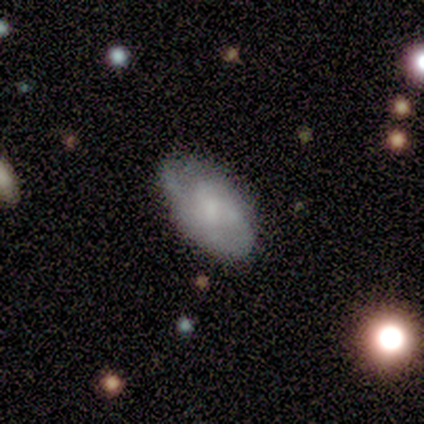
featured or disk 60%, smooth 40%, star or artifact 0%. Down the decision tree: edge-on disk — no (100%); bar — no (67%); spiral arms — yes (50%, tied with no); spiral arm count — 2 (33%, tied with 4 and can't tell); spiral winding — medium (67%); bulge size — small (50%); merging — none (70%).